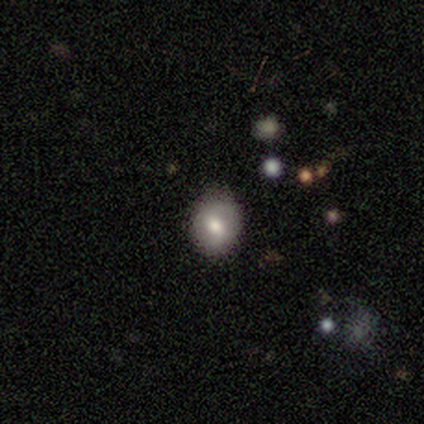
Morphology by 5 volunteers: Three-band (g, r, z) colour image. It shows a smooth galaxy with no disk features (60%) that is round (67%). Merging: none (100%).